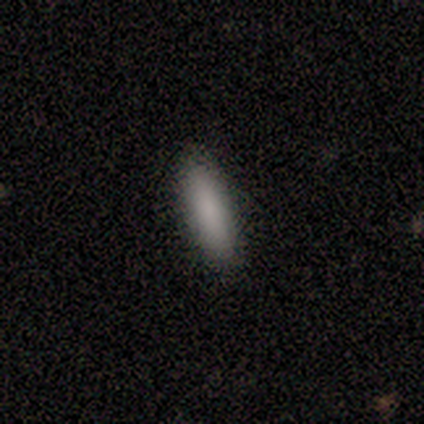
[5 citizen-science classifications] Smooth or featured?
  - smooth: 80% *
  - featured or disk: 20%
  - star or artifact: 0%
How rounded?
  - in between: 75% *
  - cigar-shaped: 25%
  - round: 0%
Merging?
  - none: 100% *
  - minor disturbance: 0%
  - major disturbance: 0%
  - merger: 0%